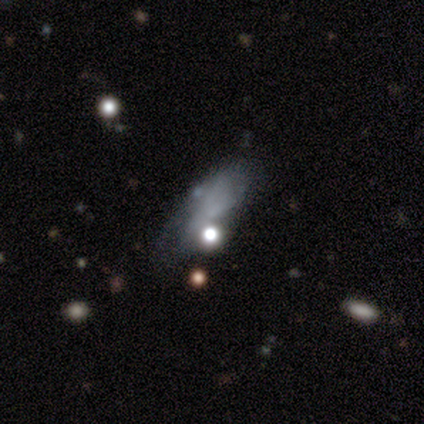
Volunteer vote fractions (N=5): smooth 60%, star or artifact 40%, featured or disk 0%. Down the decision tree: how rounded — in between (67%); merging — none (67%).